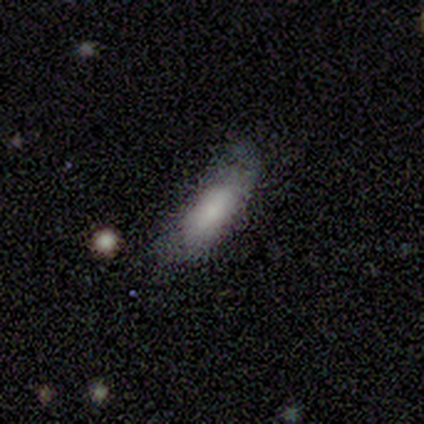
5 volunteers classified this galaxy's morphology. Smooth or featured?
  - smooth: 100% *
  - featured or disk: 0%
  - star or artifact: 0%
How rounded?
  - in between: 80% *
  - cigar-shaped: 20%
  - round: 0%
Merging?
  - none: 60% *
  - major disturbance: 40%
  - minor disturbance: 0%
  - merger: 0%